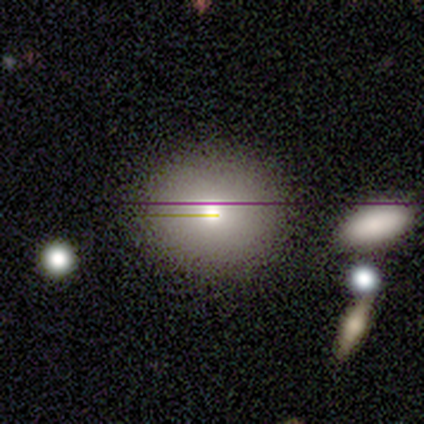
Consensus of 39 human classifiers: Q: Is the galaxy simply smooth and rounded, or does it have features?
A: smooth — 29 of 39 (74%).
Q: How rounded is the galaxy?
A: round — 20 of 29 (69%).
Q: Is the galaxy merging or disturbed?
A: none — 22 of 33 (67%).